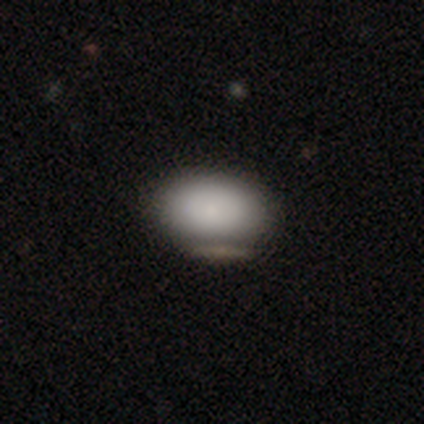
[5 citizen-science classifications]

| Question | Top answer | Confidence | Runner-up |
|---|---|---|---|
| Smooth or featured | smooth | 100% | — |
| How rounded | in between | 100% | — |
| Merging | none | 100% | — |